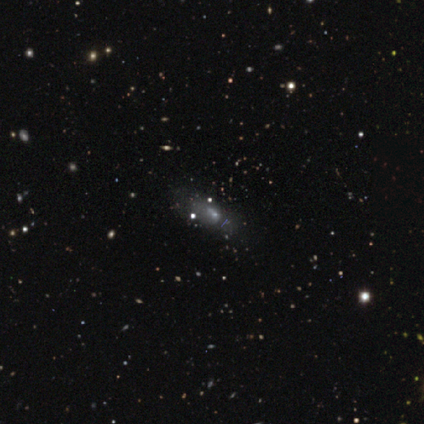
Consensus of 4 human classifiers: This appears to be a featured or disk galaxy (75%) with a strong bar (67%), no spiral arms (100%) and a small central bulge (67%). Merging: minor disturbance (50%, tied with major disturbance).